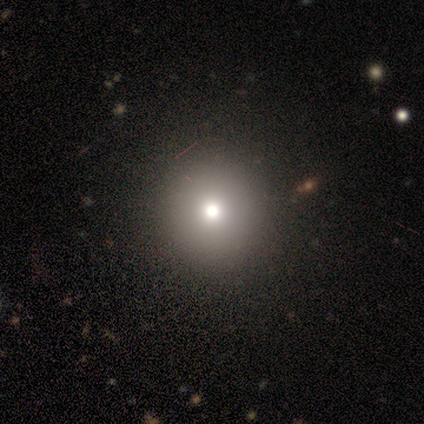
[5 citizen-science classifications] This is likely a smooth galaxy (60%). How rounded: clearly round (100%). Merging: clearly none (100%).